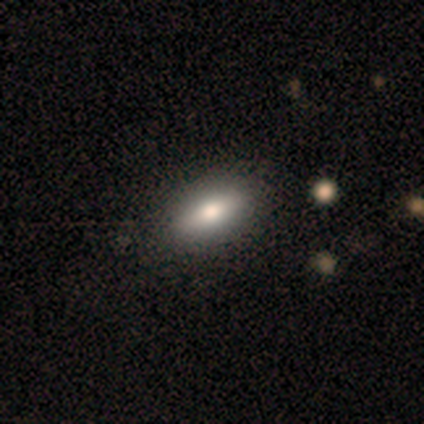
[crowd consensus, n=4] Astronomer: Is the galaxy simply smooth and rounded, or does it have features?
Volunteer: smooth — 75%.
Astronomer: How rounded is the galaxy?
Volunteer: in between — 100%.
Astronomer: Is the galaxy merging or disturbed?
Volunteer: none — 100%.